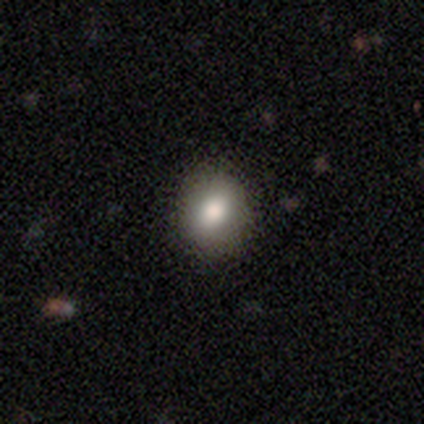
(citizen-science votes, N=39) Volunteers were most divided on "how rounded": round: 71%, in between: 29%, cigar-shaped: 0%. More confident: merging — none (94%); smooth or featured — smooth (72%).